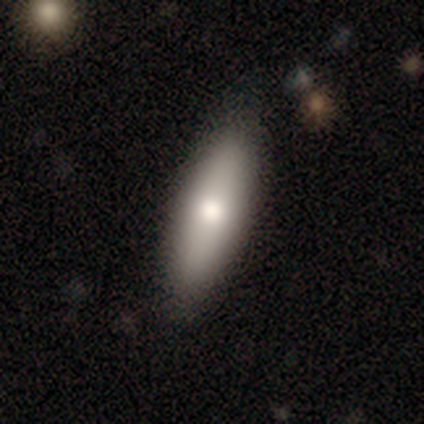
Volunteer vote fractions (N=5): Morphology: type=smooth (100%); roundness=cigar-shaped (80%); merging=none (100%).